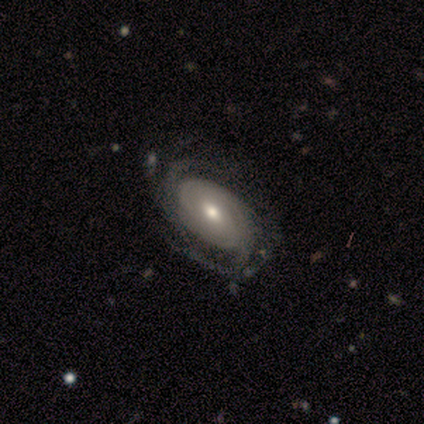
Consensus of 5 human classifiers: Smooth or featured: featured or disk — 80% (star or artifact — 20%)
Edge-on disk: no — 100%
Bar: weak — 50% (tied with no — 50%)
Spiral arms: yes — 100%
Spiral winding: tight — 50% (tied with medium — 50%)
Spiral arm count: 2 — 75% (more than 4 — 25%)
Bulge size: moderate — 50% (dominant — 25%)
Merging: none — 50% (tied with minor disturbance — 50%)